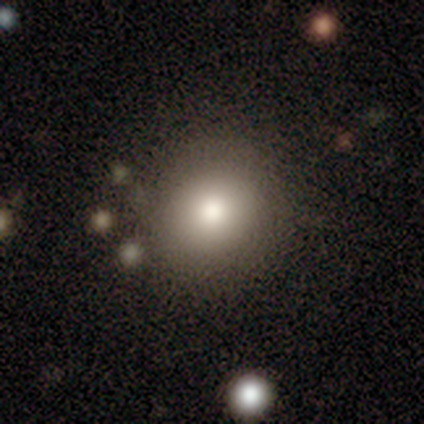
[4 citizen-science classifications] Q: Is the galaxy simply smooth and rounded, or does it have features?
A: smooth — 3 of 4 (75%).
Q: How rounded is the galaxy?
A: round — 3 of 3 (100%).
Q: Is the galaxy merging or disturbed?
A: none — 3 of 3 (100%).